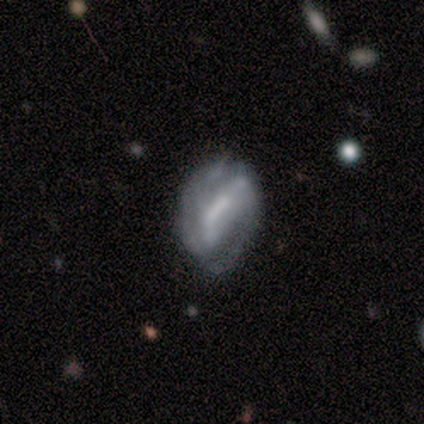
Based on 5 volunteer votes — Morphology: type=featured or disk (80%); edge-on=no (100%); bar=weak (75%); spiral arms=yes (75%); winding=medium (67%); arm count=2 (100%); bulge=moderate (75%); merging=none (40%, tied with minor disturbance).